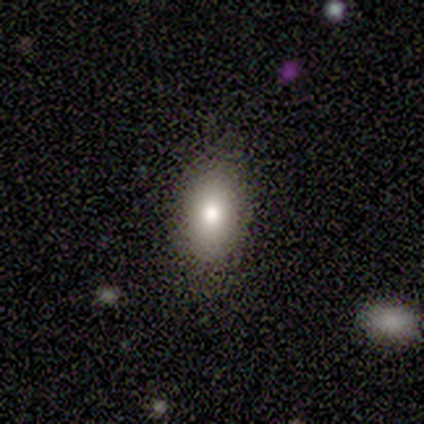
Q: Smooth or featured?
A: smooth (80%); runner-up: star or artifact (20%)
Q: How rounded?
A: in between (100%)
Q: Merging?
A: none (100%)